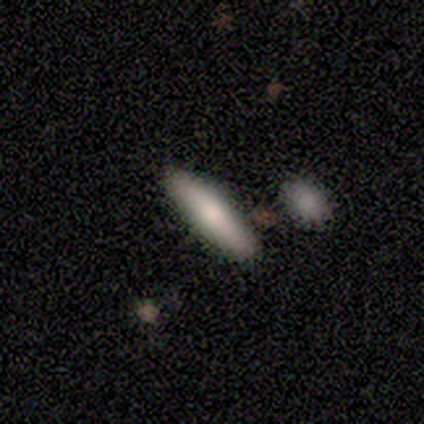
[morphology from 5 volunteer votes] A smooth galaxy with no disk features (80%) that is in between round and cigar-shaped (50%, tied with cigar-shaped). Merging: none (100%).